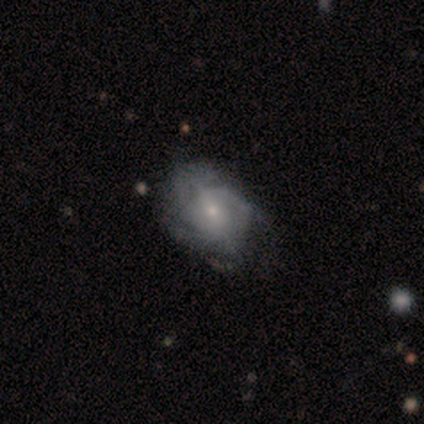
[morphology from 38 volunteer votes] featured or disk 66%, smooth 24%, star or artifact 11%. Down the decision tree: edge-on disk — no (100%); bar — weak (48%, tied with no); spiral arms — yes (88%); spiral arm count — can't tell (50%); spiral winding — medium (68%); bulge size — small (72%); merging — none (38%).